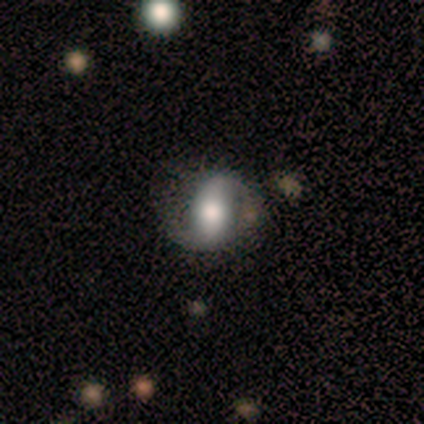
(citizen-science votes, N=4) This is possibly a featured or disk galaxy (50%). It is clearly not viewed edge-on (100%). Bar: clearly no (100%). Spiral arm pattern: possibly yes (50%, tied with no). Spiral arm count: clearly 2 (100%). Spiral winding: clearly tight (100%). Central bulge: clearly moderate (100%). Merging: likely none (67%).